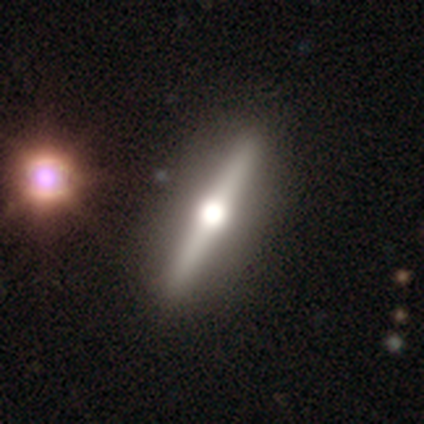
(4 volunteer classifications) Overall: featured or disk (100%). Edge-on disk: yes (75%). Edge-on bulge: rounded (100%). Merging: none (75%).